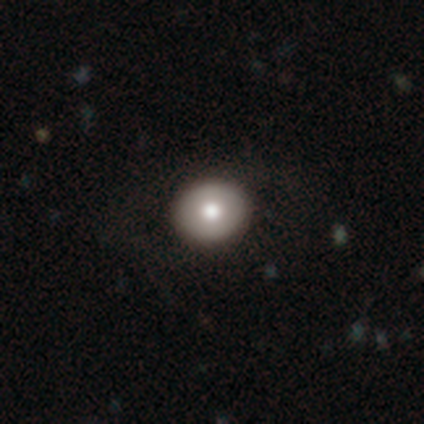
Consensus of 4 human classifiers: Smooth or featured?
  - smooth: 75% *
  - featured or disk: 25%
  - star or artifact: 0%
How rounded?
  - round: 100% *
  - in between: 0%
  - cigar-shaped: 0%
Merging?
  - none: 100% *
  - minor disturbance: 0%
  - major disturbance: 0%
  - merger: 0%